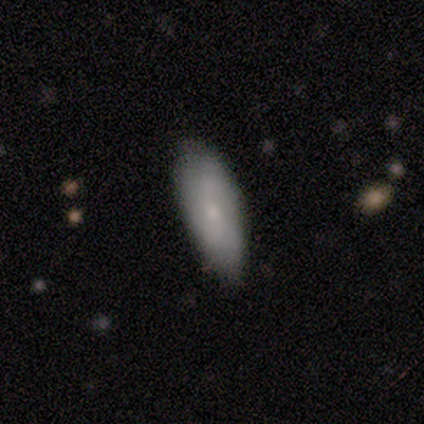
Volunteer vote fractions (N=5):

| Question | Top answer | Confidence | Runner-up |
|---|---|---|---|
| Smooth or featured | smooth | 60% | featured or disk (20%) |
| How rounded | in between | 67% | cigar-shaped (33%) |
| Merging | none | 100% | — |